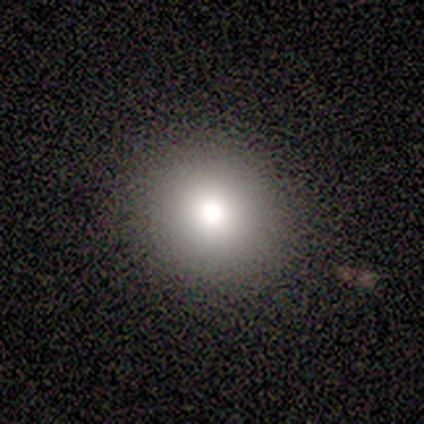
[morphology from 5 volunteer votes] Smooth or featured: smooth — 80% (star or artifact — 20%)
How rounded: round — 100%
Merging: none — 100%